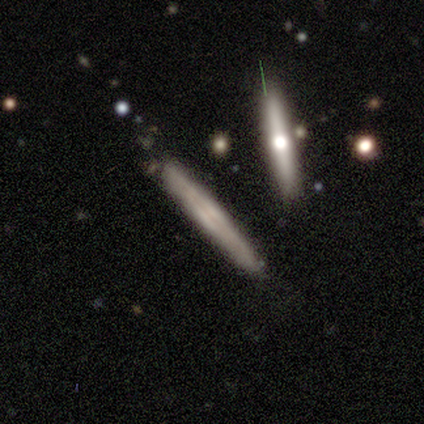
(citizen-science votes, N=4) Volunteers were most divided on "edge-on bulge": rounded: 67%, none: 33%, boxy: 0%. More confident: edge-on disk — yes (100%); smooth or featured — featured or disk (75%); merging — none (75%).